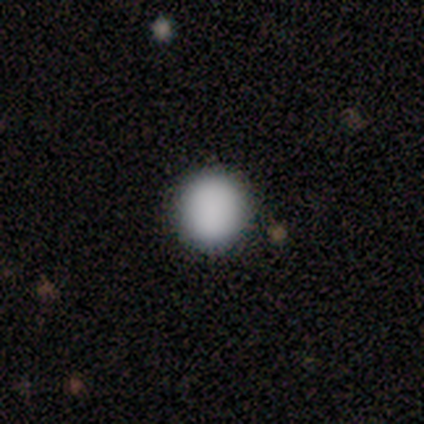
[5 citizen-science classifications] This appears to be a smooth galaxy with no disk features (80%) that is round (100%). Merging: none (80%).